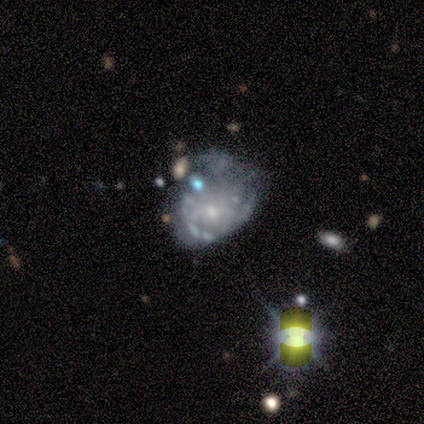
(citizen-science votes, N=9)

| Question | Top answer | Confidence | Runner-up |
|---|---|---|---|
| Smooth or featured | star or artifact | 67% | featured or disk (33%) |